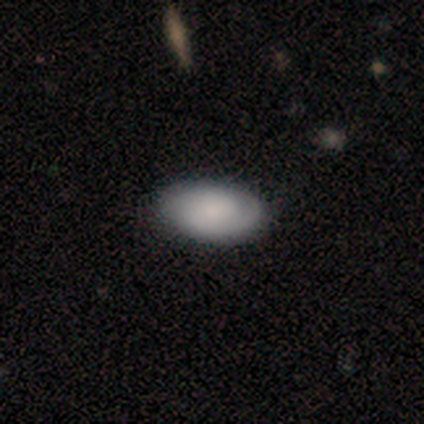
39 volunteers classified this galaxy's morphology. Smooth or featured?
  - smooth: 59% *
  - featured or disk: 33%
  - star or artifact: 8%
How rounded?
  - in between: 96% *
  - round: 4%
  - cigar-shaped: 0%
Merging?
  - none: 56% *
  - minor disturbance: 17%
  - major disturbance: 3%
  - merger: 3%